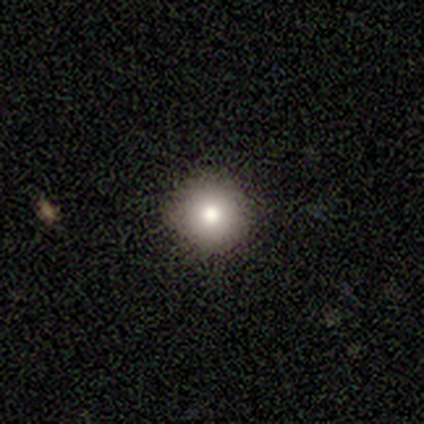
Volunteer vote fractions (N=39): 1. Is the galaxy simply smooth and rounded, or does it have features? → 79% smooth, 13% star or artifact, 8% featured or disk.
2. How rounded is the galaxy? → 97% round, 3% cigar-shaped, 0% in between.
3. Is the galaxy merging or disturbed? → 91% none, 6% minor disturbance, 3% merger, 0% major disturbance.